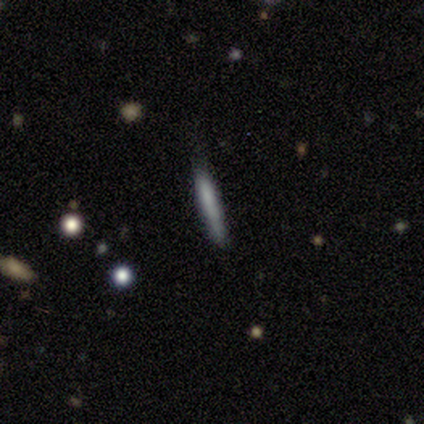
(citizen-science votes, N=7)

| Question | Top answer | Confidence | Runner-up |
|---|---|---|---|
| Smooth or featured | smooth | 57% | featured or disk (43%) |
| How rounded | cigar-shaped | 100% | — |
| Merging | none | 71% | minor disturbance (29%) |